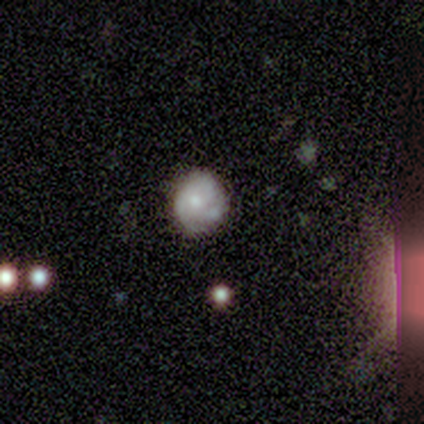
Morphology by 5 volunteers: A smooth galaxy with no disk features (80%) that is round (75%).

Vote fractions:
- Smooth or featured? smooth: 80% / featured or disk: 20% / star or artifact: 0%
- How rounded? round: 75% / in between: 25% / cigar-shaped: 0%
- Merging? none: 60% / minor disturbance: 20% / merger: 20% / major disturbance: 0%